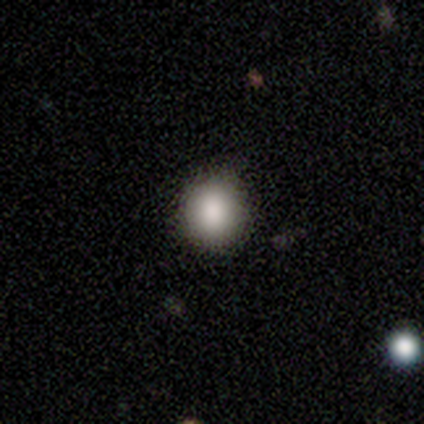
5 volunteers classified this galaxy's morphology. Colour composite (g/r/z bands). It shows a smooth galaxy with no disk features (100%) that is round (80%). Merging: none (60%).